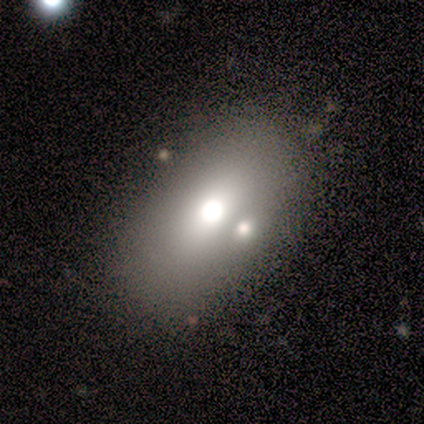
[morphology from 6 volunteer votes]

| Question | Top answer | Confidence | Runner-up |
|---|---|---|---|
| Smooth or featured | smooth | 83% | star or artifact (17%) |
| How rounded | in between | 100% | — |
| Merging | none | 80% | major disturbance (20%) |